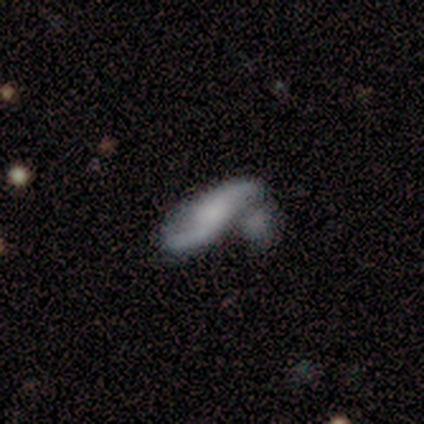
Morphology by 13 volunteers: This appears to be a featured or disk galaxy (54%) with a weak bar (40%, tied with no), 2 (100%) loose (100%) spiral arms (80%) and a moderate central bulge (40%). Merging: merger (58%).